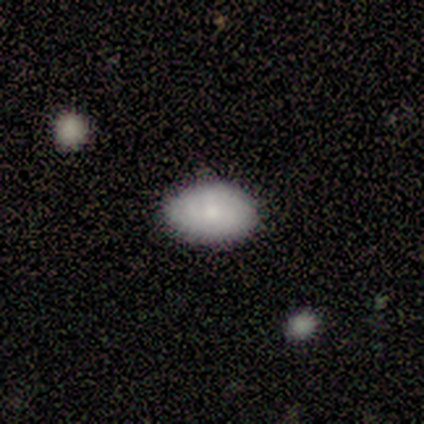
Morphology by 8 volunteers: smooth_or_featured: smooth (p=0.75) [alt: featured or disk p=0.12]
how_rounded: in between (p=0.83) [alt: round p=0.17]
merging: none (p=1.00)